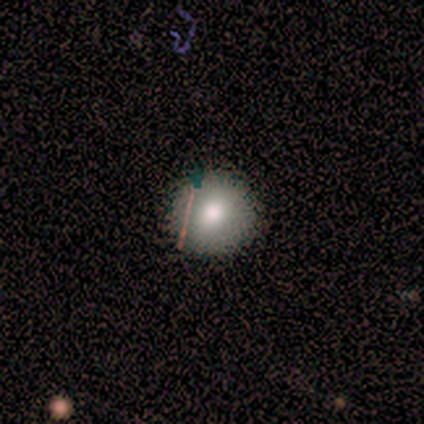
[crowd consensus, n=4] Overall: star or artifact (75%).